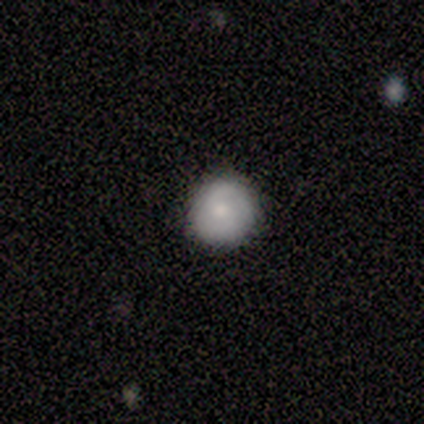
smooth_or_featured: smooth (p=0.60) [alt: featured or disk p=0.40]
how_rounded: round (p=1.00)
merging: none (p=1.00)